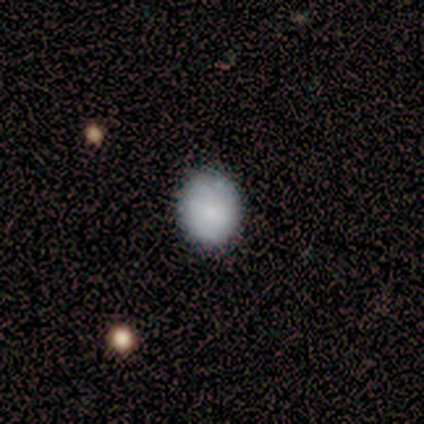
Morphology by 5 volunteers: Smooth or featured: smooth — 80% (featured or disk — 20%)
How rounded: round — 75% (in between — 25%)
Merging: none — 60% (minor disturbance — 20%)